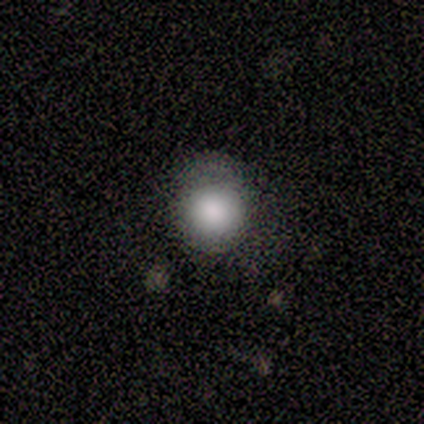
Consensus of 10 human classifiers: This is clearly a smooth galaxy (80%). How rounded: clearly round (100%). Merging: likely none (70%).